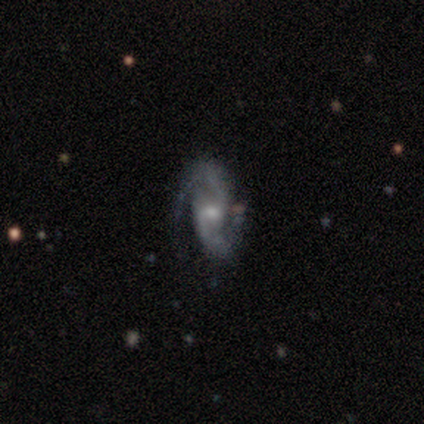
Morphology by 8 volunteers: Q: Smooth or featured?
A: featured or disk (88%); runner-up: smooth (12%)
Q: Edge-on disk?
A: no (100%)
Q: Bar?
A: weak (43%); tied with: no (43%)
Q: Spiral arms?
A: yes (100%)
Q: Spiral winding?
A: tight (43%); tied with: medium (43%)
Q: Spiral arm count?
A: 2 (100%)
Q: Bulge size?
A: small (71%); runner-up: large (14%)
Q: Merging?
A: none (75%); runner-up: minor disturbance (25%)